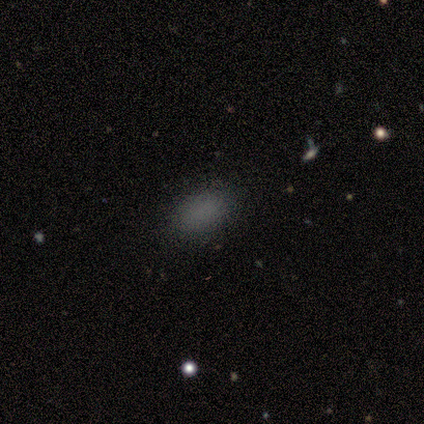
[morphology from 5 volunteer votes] type=smooth (100%); roundness=in between (80%); merging=none (100%).